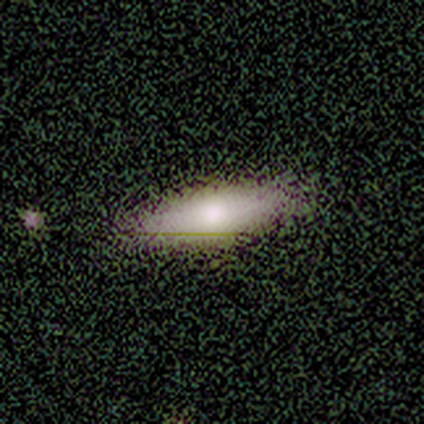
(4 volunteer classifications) Morphology: type=smooth (100%); roundness=in between (75%); merging=none (50%).